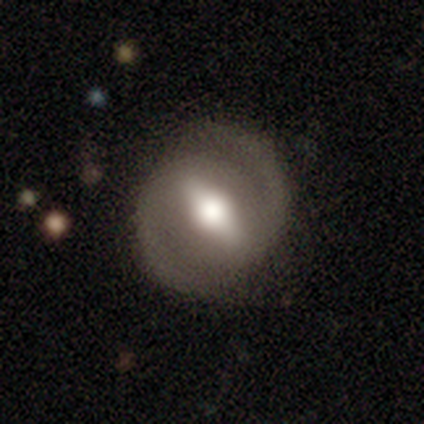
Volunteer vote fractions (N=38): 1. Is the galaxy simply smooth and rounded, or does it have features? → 74% featured or disk, 16% smooth, 11% star or artifact.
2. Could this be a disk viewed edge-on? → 96% no, 4% yes.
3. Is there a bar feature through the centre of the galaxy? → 81% strong, 15% weak, 4% no.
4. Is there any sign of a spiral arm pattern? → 96% yes, 4% no.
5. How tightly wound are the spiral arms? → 62% medium, 23% tight, 15% loose.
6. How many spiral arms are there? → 92% 2, 8% 1, 0% 3, 0% 4, 0% more than 4, 0% can't tell.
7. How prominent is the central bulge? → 59% moderate, 41% large, 0% dominant, 0% small, 0% none.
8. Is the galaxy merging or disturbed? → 79% none, 12% minor disturbance, 9% major disturbance, 0% merger.